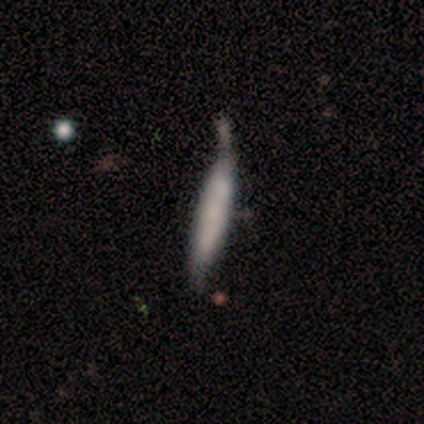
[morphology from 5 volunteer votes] Smooth or featured? smooth (80%)
How rounded? cigar-shaped (100%)
Merging? none (60%)